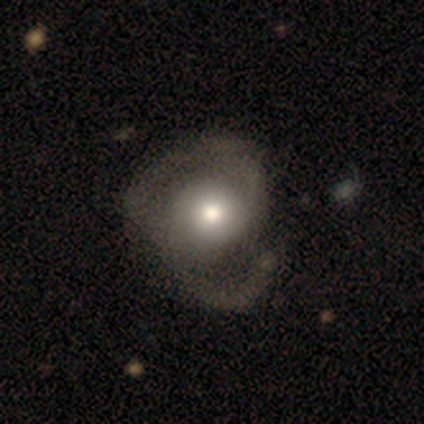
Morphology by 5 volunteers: Smooth or featured?
  - featured or disk: 80% *
  - smooth: 20%
  - star or artifact: 0%
Edge-on disk?
  - no: 100% *
  - yes: 0%
Bar?
  - no: 100% *
  - strong: 0%
  - weak: 0%
Spiral arms?
  - yes: 75% *
  - no: 25%
Spiral winding?
  - tight: 67% *
  - medium: 33%
  - loose: 0%
Spiral arm count?
  - 2: 67% *
  - 3: 33%
  - 1: 0%
  - 4: 0%
  - more than 4: 0%
  - can't tell: 0%
Bulge size?
  - moderate: 50% *
  - large: 25%
  - small: 25%
  - dominant: 0%
  - none: 0%
Merging?
  - none: 40% * (tied)
  - minor disturbance: 40% * (tied)
  - major disturbance: 20%
  - merger: 0%